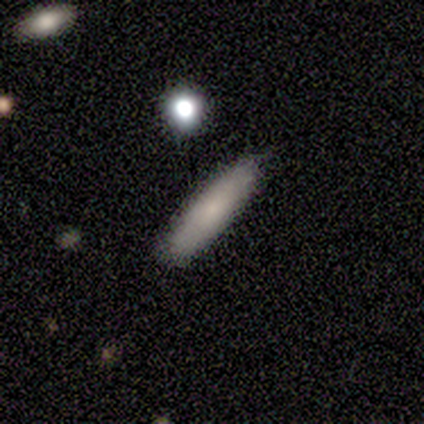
Q: Smooth or featured?
A: smooth (80%); runner-up: star or artifact (20%)
Q: How rounded?
A: cigar-shaped (75%); runner-up: in between (25%)
Q: Merging?
A: none (75%); runner-up: merger (25%)